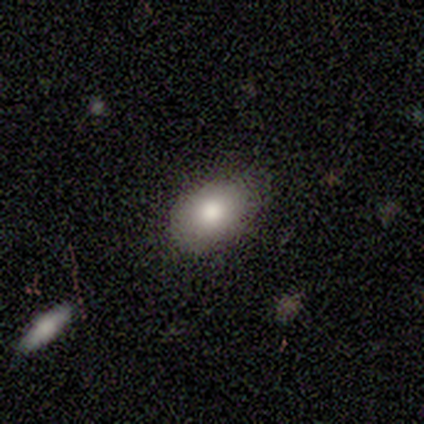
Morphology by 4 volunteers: A smooth galaxy with no disk features (100%) that is in between round and cigar-shaped (100%).

Vote fractions:
- Smooth or featured? smooth: 100% / featured or disk: 0% / star or artifact: 0%
- How rounded? in between: 100% / round: 0% / cigar-shaped: 0%
- Merging? none: 50% (tied) / minor disturbance: 50% (tied) / major disturbance: 0% / merger: 0%